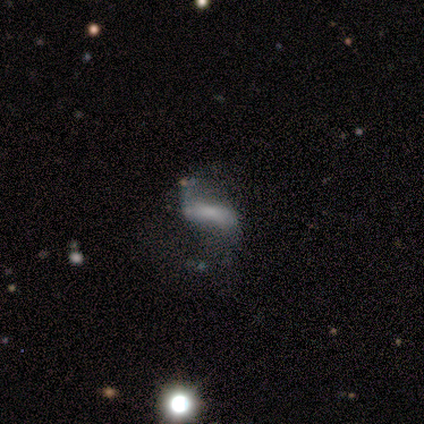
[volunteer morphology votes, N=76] type=featured or disk (71%); edge-on=no (91%); bar=strong (53%); spiral arms=yes (80%); winding=loose (74%); arm count=2 (97%); bulge=none (41%); merging=none (39%).